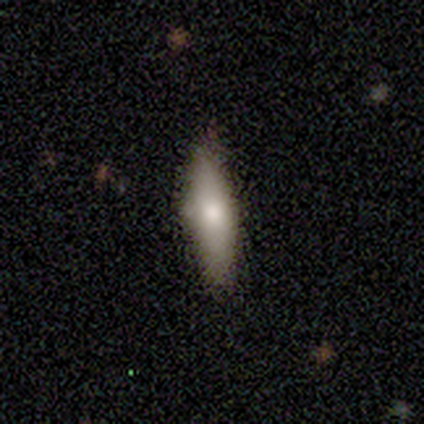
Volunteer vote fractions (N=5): Smooth or featured?
  - smooth: 80% *
  - featured or disk: 20%
  - star or artifact: 0%
How rounded?
  - in between: 50% * (tied)
  - cigar-shaped: 50% * (tied)
  - round: 0%
Merging?
  - none: 100% *
  - minor disturbance: 0%
  - major disturbance: 0%
  - merger: 0%